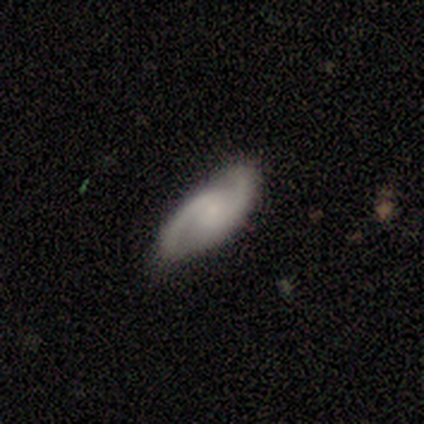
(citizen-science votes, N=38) This appears to be a featured or disk galaxy (76%) with no bar (73%), 2 (100%) medium (57%) spiral arms (88%) and a small central bulge (50%). Merging: none (80%).